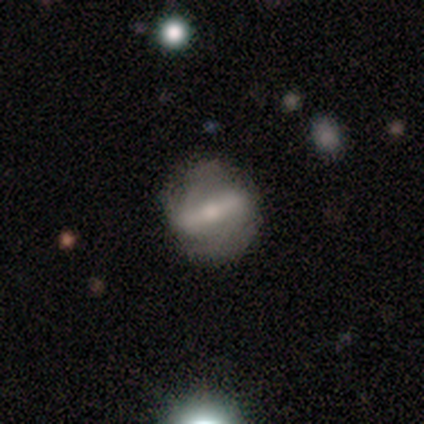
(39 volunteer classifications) Smooth or featured? 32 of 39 (82%) said featured or disk. Edge-on disk? 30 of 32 (94%) said no. Bar? 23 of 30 (77%) said strong. Spiral arms? 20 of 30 (67%) said yes. Spiral winding? 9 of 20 (45%) said medium. Spiral arm count? 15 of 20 (75%) said 2. Bulge size? 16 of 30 (53%) said small. Merging? 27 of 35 (77%) said none.